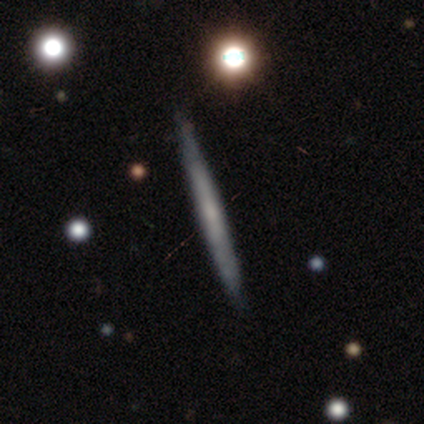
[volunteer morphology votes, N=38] Overall: featured or disk (66%; smooth 34%). Edge-on disk: yes (88%). Edge-on bulge: none (73%). Merging: none (87%).